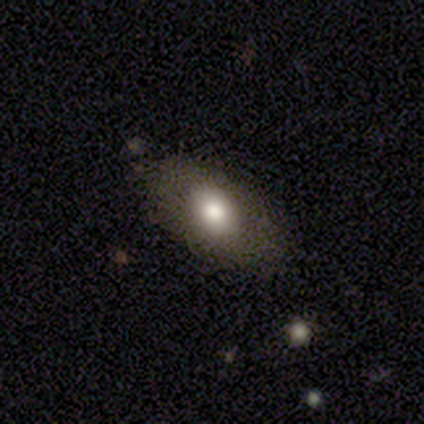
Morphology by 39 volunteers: A smooth galaxy with no disk features (74%) that is in between round and cigar-shaped (90%).

Vote fractions:
- Smooth or featured? smooth: 74% / featured or disk: 15% / star or artifact: 10%
- How rounded? in between: 90% / round: 7% / cigar-shaped: 3%
- Merging? none: 89% / minor disturbance: 9% / major disturbance: 3% / merger: 0%